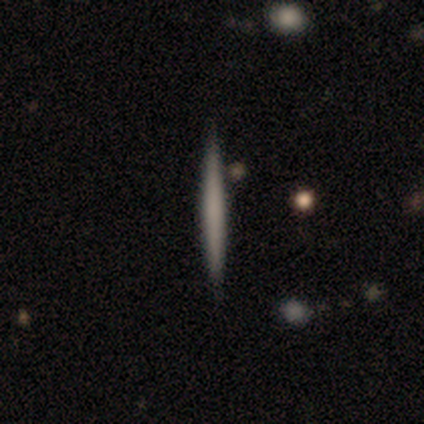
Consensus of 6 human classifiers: This appears to be a smooth galaxy with no disk features (67%) that is cigar-shaped (100%). Merging: none (100%).